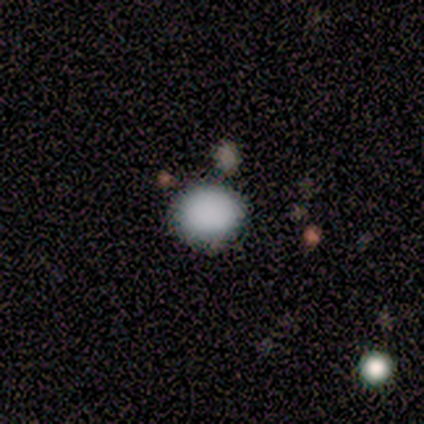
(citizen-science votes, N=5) This appears to be a smooth galaxy with no disk features (100%) that is round (80%). Merging: none (60%).